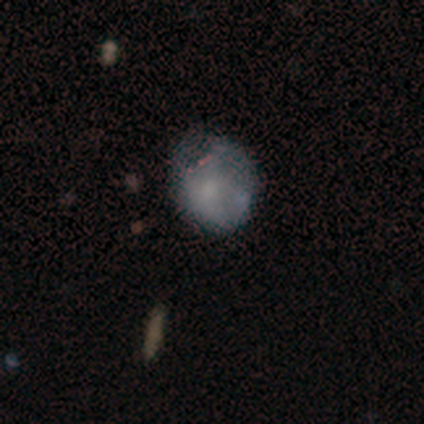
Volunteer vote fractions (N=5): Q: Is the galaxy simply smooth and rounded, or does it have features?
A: smooth — 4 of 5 (80%).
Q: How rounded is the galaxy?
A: round — 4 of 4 (100%).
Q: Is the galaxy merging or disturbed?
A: minor disturbance — 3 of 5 (60%).